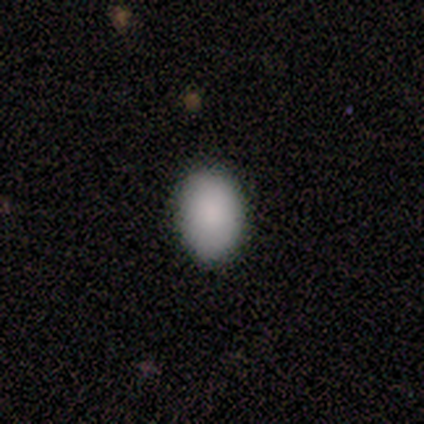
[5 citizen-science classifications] Consensus on every question: smooth or featured — smooth (100%); how rounded — in between (100%); merging — none (100%).